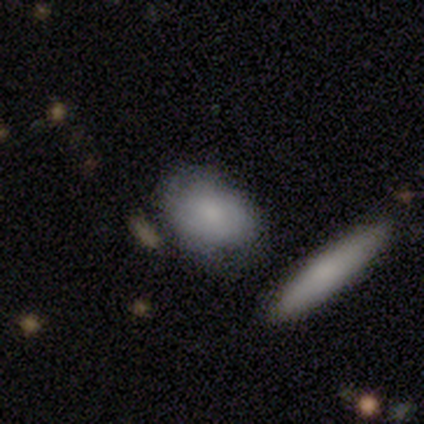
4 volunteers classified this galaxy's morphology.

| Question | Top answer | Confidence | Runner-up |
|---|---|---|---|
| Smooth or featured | smooth | 75% | featured or disk (25%) |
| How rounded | in between | 67% | round (33%) |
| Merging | none | 75% | minor disturbance (25%) |